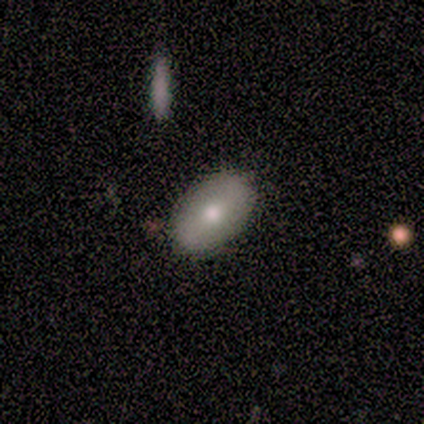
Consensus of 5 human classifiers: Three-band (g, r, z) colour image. It shows a smooth galaxy with no disk features (80%) that is in between round and cigar-shaped (100%). Merging: none (60%).